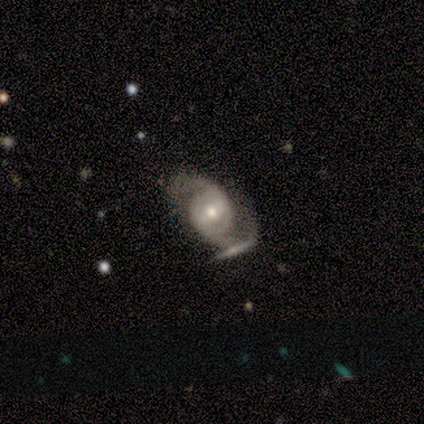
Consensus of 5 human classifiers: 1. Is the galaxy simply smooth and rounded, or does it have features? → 100% featured or disk, 0% smooth, 0% star or artifact.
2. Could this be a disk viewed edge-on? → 80% no, 20% yes.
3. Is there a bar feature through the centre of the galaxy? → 50% weak (tied), 50% no (tied), 0% strong.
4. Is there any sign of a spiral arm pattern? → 100% yes, 0% no.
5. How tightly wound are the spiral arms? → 50% tight, 25% medium, 25% loose.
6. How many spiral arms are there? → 75% 2, 25% can't tell, 0% 1, 0% 3, 0% 4, 0% more than 4.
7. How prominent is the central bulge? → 50% moderate, 25% large, 25% small, 0% dominant, 0% none.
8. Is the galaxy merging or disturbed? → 60% none, 20% minor disturbance, 20% merger, 0% major disturbance.